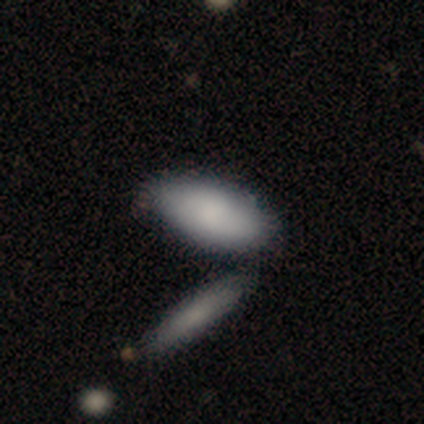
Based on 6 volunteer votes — This is clearly a smooth galaxy (100%). How rounded: clearly in between (83%). Merging: possibly none (50%, tied with merger).